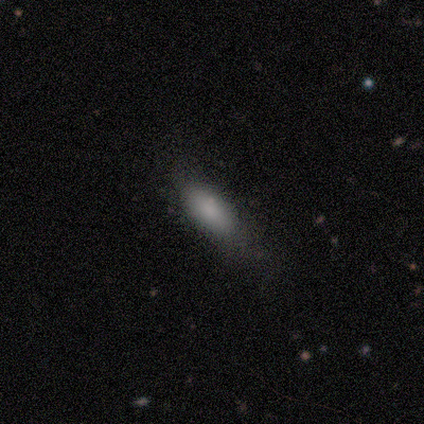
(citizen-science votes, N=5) This is clearly a smooth galaxy (100%). How rounded: clearly in between (80%). Merging: likely none (60%).